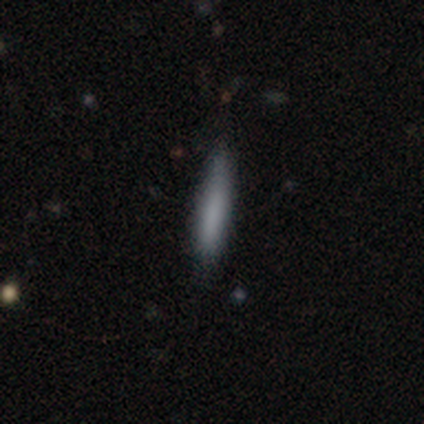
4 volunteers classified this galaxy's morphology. smooth_or_featured: smooth (p=0.75) [alt: featured or disk p=0.25]
how_rounded: in between (p=0.67) [alt: cigar-shaped p=0.33]
merging: minor disturbance (p=0.50) [alt: none p=0.25]